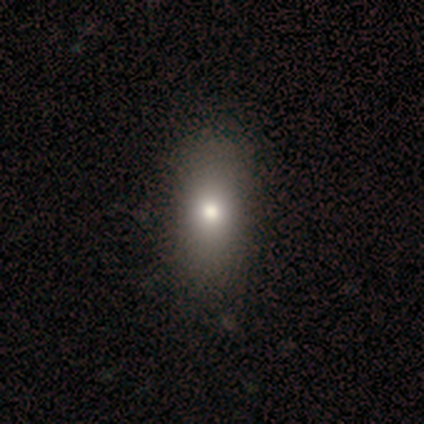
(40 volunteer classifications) A smooth galaxy with no disk features (72%) that is in between round and cigar-shaped (76%).

Vote fractions:
- Smooth or featured? smooth: 72% / featured or disk: 20% / star or artifact: 8%
- How rounded? in between: 76% / cigar-shaped: 14% / round: 10%
- Merging? none: 81% / minor disturbance: 11% / major disturbance: 0% / merger: 0%